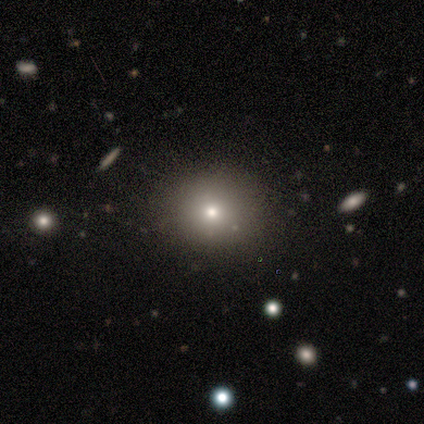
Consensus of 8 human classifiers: Smooth or featured?
  - smooth: 88% *
  - star or artifact: 12%
  - featured or disk: 0%
How rounded?
  - round: 86% *
  - in between: 14%
  - cigar-shaped: 0%
Merging?
  - none: 86% *
  - minor disturbance: 14%
  - major disturbance: 0%
  - merger: 0%